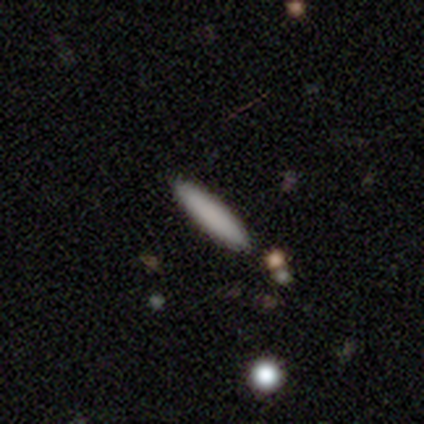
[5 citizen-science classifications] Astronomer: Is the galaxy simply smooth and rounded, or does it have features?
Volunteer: smooth — 100%.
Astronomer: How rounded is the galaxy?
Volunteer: cigar-shaped — 100%.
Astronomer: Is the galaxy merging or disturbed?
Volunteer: none — 100%.